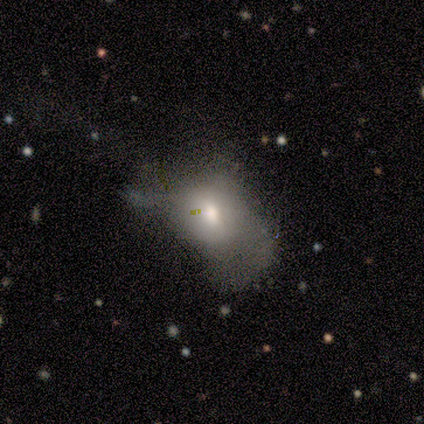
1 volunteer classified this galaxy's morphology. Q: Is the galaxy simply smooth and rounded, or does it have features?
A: smooth — 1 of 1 (100%).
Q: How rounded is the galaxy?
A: in between — 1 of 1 (100%).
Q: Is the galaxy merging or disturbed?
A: major disturbance — 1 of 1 (100%).